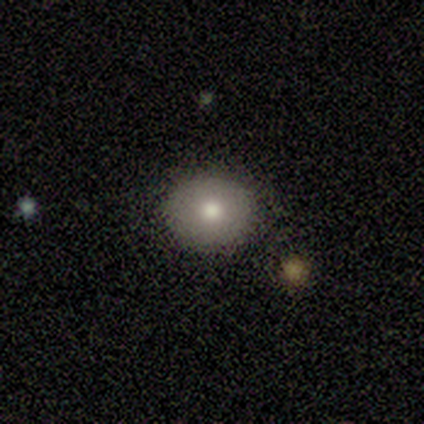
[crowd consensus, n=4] Smooth or featured: smooth — 75% (featured or disk — 25%)
How rounded: round — 100%
Merging: none — 75% (merger — 25%)